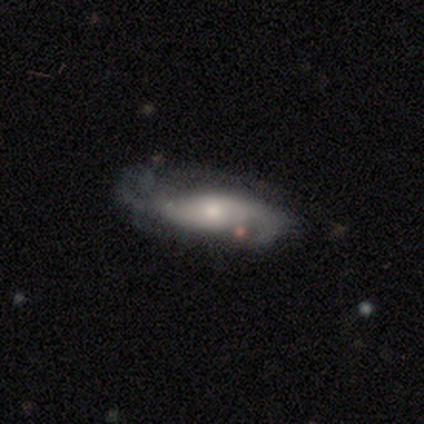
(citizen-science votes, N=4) Volunteers were most divided on "smooth or featured" (2-way tie): smooth: 50%, featured or disk: 50%, star or artifact: 0%; "how rounded" (2-way tie): in between: 50%, cigar-shaped: 50%, round: 0%; "merging" (2-way tie): none: 50%, minor disturbance: 50%, major disturbance: 0%, merger: 0%.